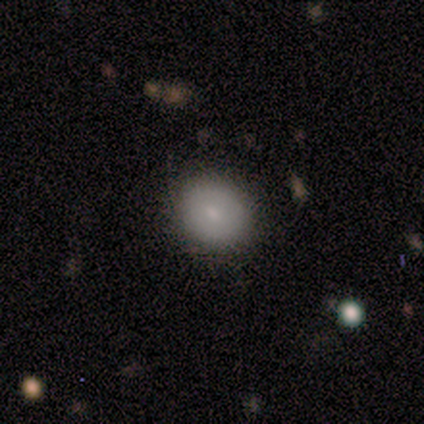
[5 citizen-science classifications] Q: Smooth or featured?
A: smooth (80%); runner-up: featured or disk (20%)
Q: How rounded?
A: round (75%); runner-up: in between (25%)
Q: Merging?
A: none (100%)